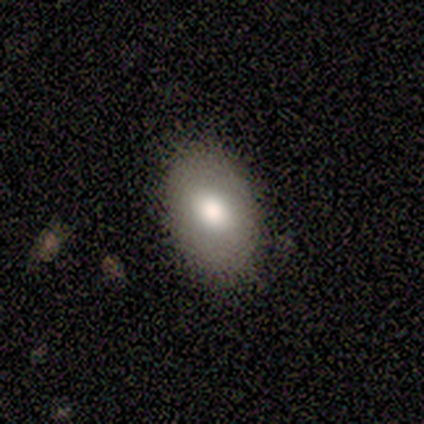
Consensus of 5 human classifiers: smooth_or_featured: smooth (p=0.40) [tied with: star or artifact p=0.40]
how_rounded: in between (p=1.00)
merging: none (p=1.00)